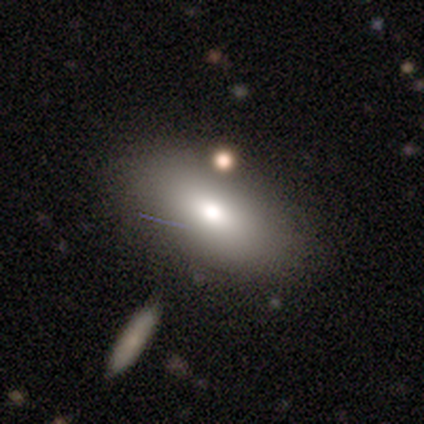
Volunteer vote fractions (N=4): A smooth galaxy with no disk features (100%) that is in between round and cigar-shaped (75%). Merging: none (75%).